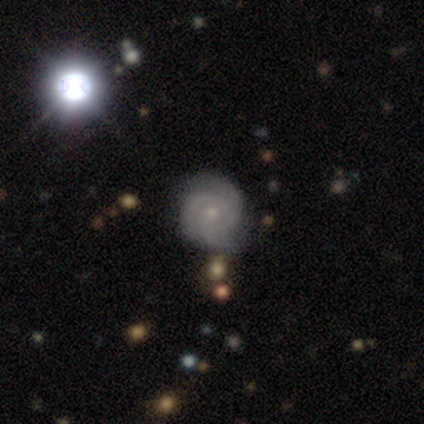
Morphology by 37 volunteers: type=featured or disk (76%); edge-on=no (100%); bar=no (82%); spiral arms=yes (100%); winding=tight (79%); arm count=3 (68%); bulge=small (75%); merging=none (50%).